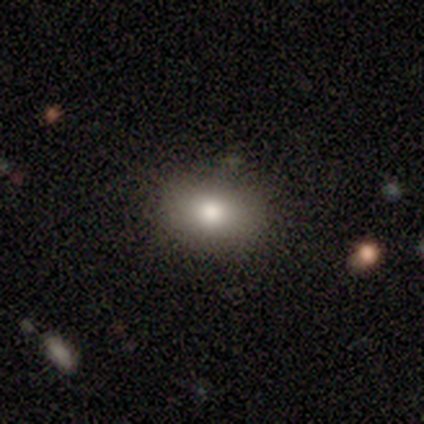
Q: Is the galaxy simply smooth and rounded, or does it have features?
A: smooth — 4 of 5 (80%).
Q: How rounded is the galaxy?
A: in between — 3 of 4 (75%).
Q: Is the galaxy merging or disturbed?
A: none — 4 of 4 (100%).